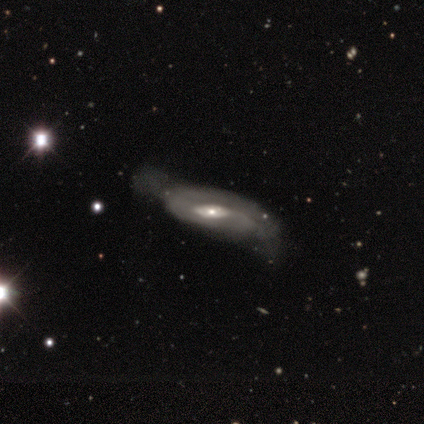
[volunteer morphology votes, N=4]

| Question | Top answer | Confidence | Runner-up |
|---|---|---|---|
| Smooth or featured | featured or disk | 75% | star or artifact (25%) |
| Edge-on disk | no | 100% | — |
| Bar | no | 100% | — |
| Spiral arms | no | 67% | yes (33%) |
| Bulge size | moderate | 100% | — |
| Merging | minor disturbance | 67% | major disturbance (33%) |